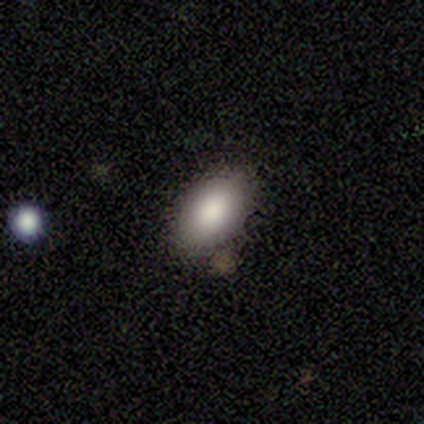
This is clearly a smooth galaxy (100%). How rounded: clearly in between (100%). Merging: likely none (75%).